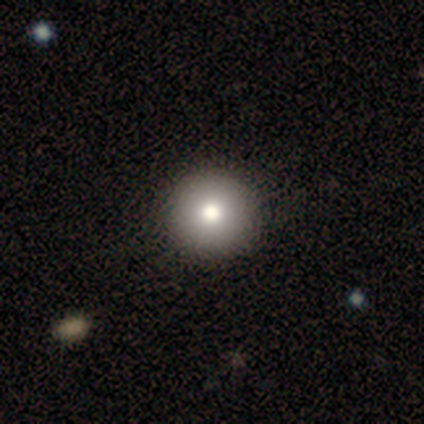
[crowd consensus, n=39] Morphology: type=smooth (72%); roundness=round (96%); merging=none (71%).